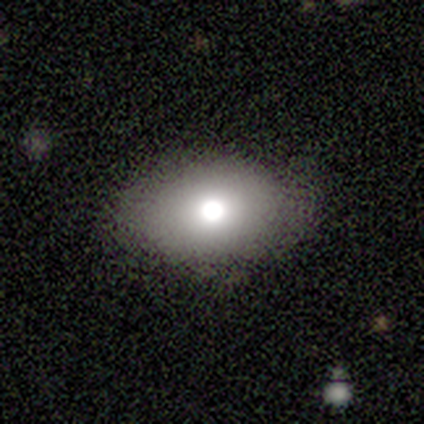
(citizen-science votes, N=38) This appears to be a smooth galaxy with no disk features (63%) that is in between round and cigar-shaped (79%). Merging: none (88%).